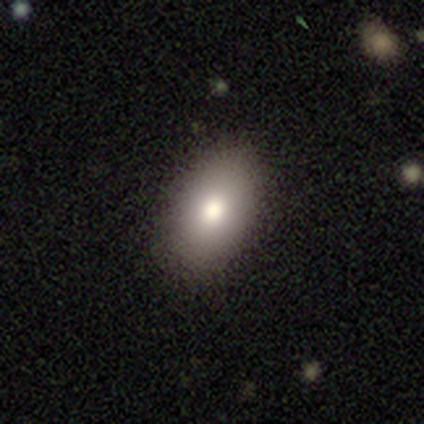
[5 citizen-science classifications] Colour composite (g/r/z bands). It shows a smooth galaxy with no disk features (100%) that is in between round and cigar-shaped (80%). Merging: none (80%).